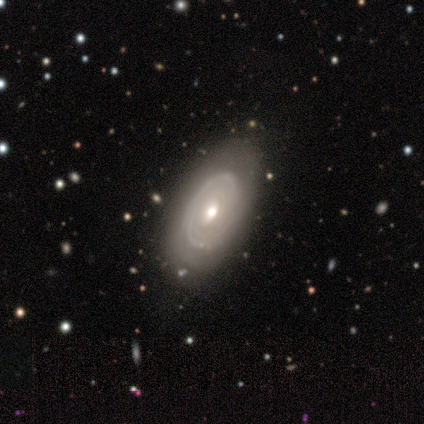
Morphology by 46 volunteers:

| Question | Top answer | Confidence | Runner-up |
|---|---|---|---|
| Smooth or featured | featured or disk | 76% | smooth (20%) |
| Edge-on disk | no | 94% | yes (6%) |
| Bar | no | 82% | weak (18%) |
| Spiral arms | yes | 73% | no (27%) |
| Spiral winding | tight | 83% | medium (12%) |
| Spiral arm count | can't tell | 50% | 3 (17%) |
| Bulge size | moderate | 64% | small (21%) |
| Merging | none | 73% | minor disturbance (16%) |